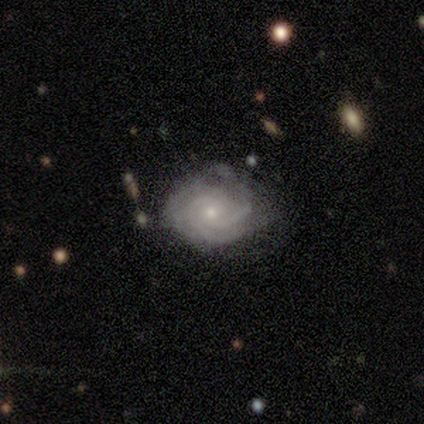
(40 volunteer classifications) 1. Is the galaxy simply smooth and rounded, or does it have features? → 88% featured or disk, 8% smooth, 5% star or artifact.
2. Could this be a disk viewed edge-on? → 94% no, 6% yes.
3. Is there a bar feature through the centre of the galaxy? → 67% no, 30% weak, 3% strong.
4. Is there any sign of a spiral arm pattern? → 94% yes, 6% no.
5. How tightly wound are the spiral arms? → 81% tight, 16% medium, 3% loose.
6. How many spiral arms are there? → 58% 3, 19% can't tell, 16% 4, 6% 2, 0% 1, 0% more than 4.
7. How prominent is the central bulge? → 55% small, 42% moderate, 3% none, 0% dominant, 0% large.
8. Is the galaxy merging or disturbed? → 55% none, 26% minor disturbance, 13% major disturbance, 5% merger.